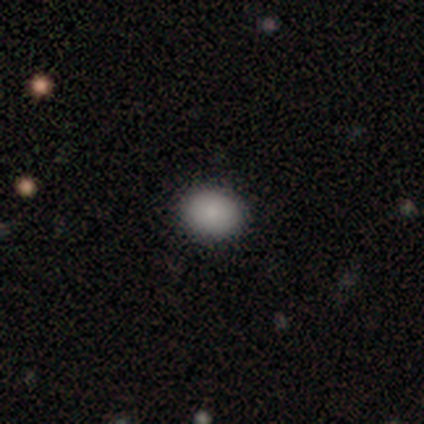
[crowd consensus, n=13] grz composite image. It shows a smooth galaxy with no disk features (100%) that is in between round and cigar-shaped (62%). Merging: none (100%).